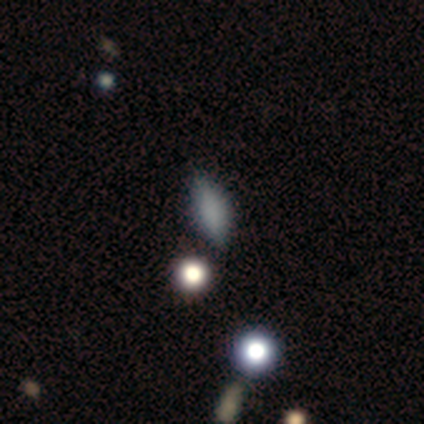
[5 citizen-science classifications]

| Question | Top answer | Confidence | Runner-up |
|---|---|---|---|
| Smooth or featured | smooth | 100% | — |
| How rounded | in between | 100% | — |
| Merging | none | 100% | — |